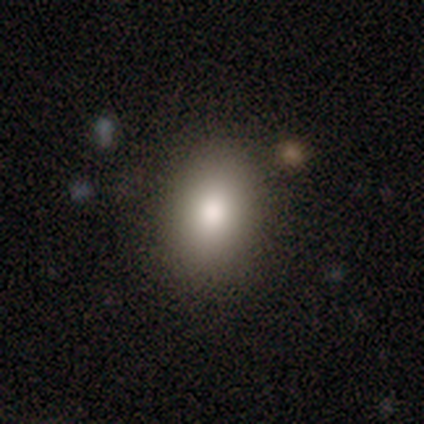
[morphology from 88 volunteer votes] Q: Smooth or featured?
A: smooth (89%); runner-up: star or artifact (8%)
Q: How rounded?
A: in between (64%); runner-up: round (36%)
Q: Merging?
A: none (85%); runner-up: minor disturbance (7%)